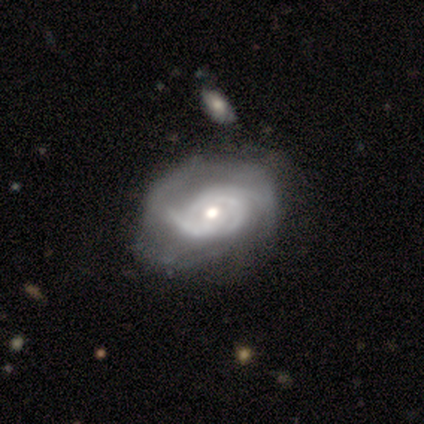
smooth-or-featured: featured or disk: 100% | smooth: 0% | star or artifact: 0%
  disk-edge-on: no: 100% | yes: 0%
    bar: no: 100% | strong: 0% | weak: 0%
    has-spiral-arms: yes: 100% | no: 0%
      spiral-winding: tight: 80% | medium: 20% | loose: 0%
      spiral-arm-count: 3: 60% | can't tell: 40% | 1: 0% | 2: 0% | 4: 0% | more than 4: 0%
    bulge-size: moderate: 40% (tied) | small: 40% (tied) | large: 20% | dominant: 0% | none: 0%
  merging: none: 40% (tied) | minor disturbance: 40% (tied) | merger: 20% | major disturbance: 0%